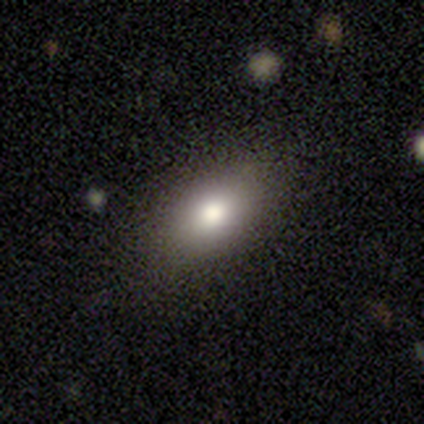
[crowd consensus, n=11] Smooth or featured? smooth (82%)
How rounded? in between (78%)
Merging? none (64%)